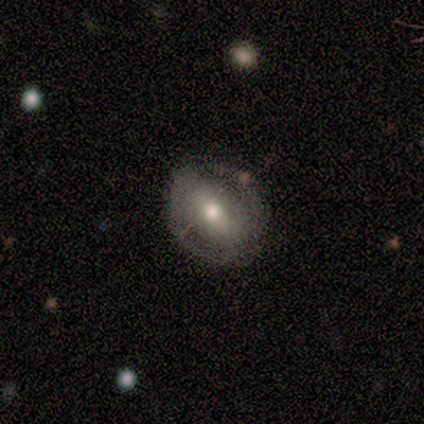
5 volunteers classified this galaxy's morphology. smooth-or-featured: featured or disk: 80% | smooth: 20% | star or artifact: 0%
  disk-edge-on: no: 100% | yes: 0%
    bar: strong: 50% (tied) | no: 50% (tied) | weak: 0%
    has-spiral-arms: yes: 50% (tied) | no: 50% (tied)
      spiral-winding: tight: 100% | medium: 0% | loose: 0%
      spiral-arm-count: 2: 100% | 1: 0% | 3: 0% | 4: 0% | more than 4: 0% | can't tell: 0%
    bulge-size: large: 50% (tied) | moderate: 50% (tied) | dominant: 0% | small: 0% | none: 0%
  merging: none: 80% | minor disturbance: 20% | major disturbance: 0% | merger: 0%